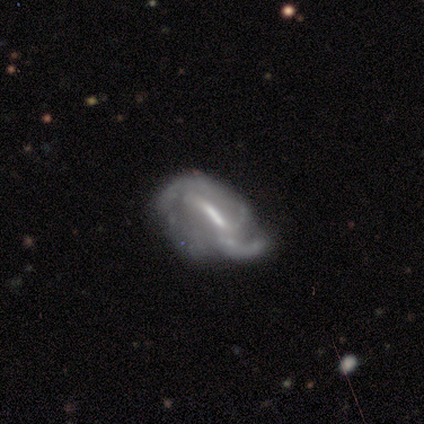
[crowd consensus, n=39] featured or disk 79%, smooth 10%, star or artifact 10%. Down the decision tree: edge-on disk — no (90%); bar — strong (61%); spiral arms — yes (96%); spiral arm count — 2 (44%); spiral winding — tight (33%, tied with medium and loose); bulge size — moderate (46%); merging — none (40%).